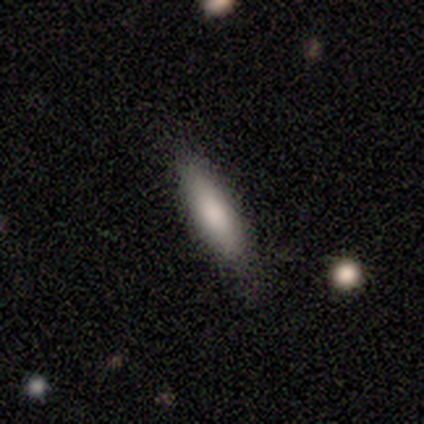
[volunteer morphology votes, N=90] A smooth galaxy with no disk features (82%) that is cigar-shaped (73%).

Vote fractions:
- Smooth or featured? smooth: 82% / featured or disk: 12% / star or artifact: 6%
- How rounded? cigar-shaped: 73% / in between: 26% / round: 1%
- Merging? none: 79% / minor disturbance: 19% / major disturbance: 2% / merger: 0%